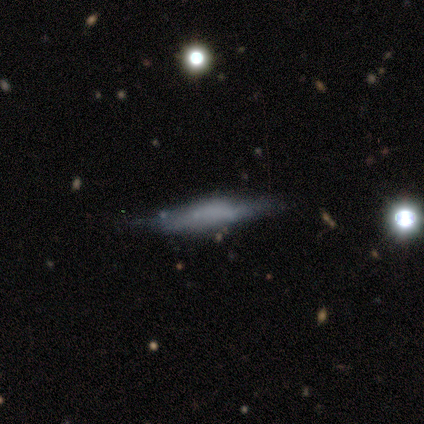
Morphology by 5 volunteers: smooth 80%, featured or disk 20%, star or artifact 0%. Down the decision tree: how rounded — cigar-shaped (100%); merging — none (60%).